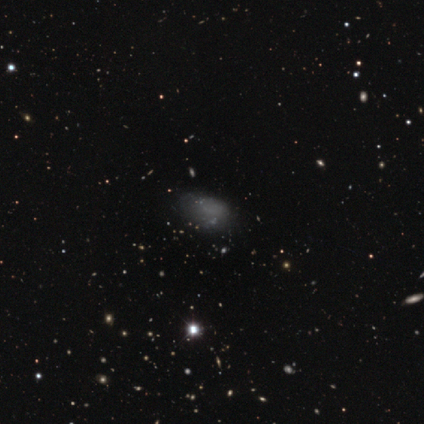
smooth 60%, featured or disk 20%, star or artifact 20%. Down the decision tree: how rounded — in between (100%); merging — minor disturbance (75%).